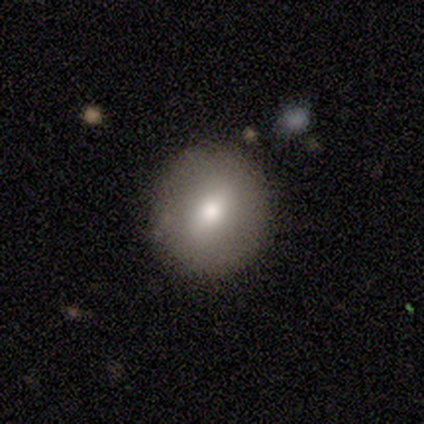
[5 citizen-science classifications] smooth-or-featured: smooth: 80% | featured or disk: 20% | star or artifact: 0%
  how-rounded: round: 50% (tied) | in between: 50% (tied) | cigar-shaped: 0%
  merging: none: 100% | minor disturbance: 0% | major disturbance: 0% | merger: 0%